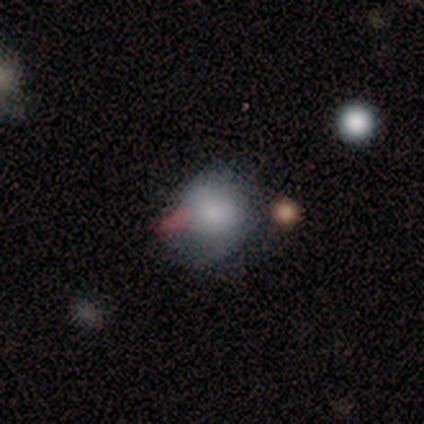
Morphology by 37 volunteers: smooth_or_featured: smooth (p=0.65) [alt: featured or disk p=0.19]
how_rounded: round (p=0.88) [alt: in between p=0.12]
merging: none (p=0.55) [alt: minor disturbance p=0.35]